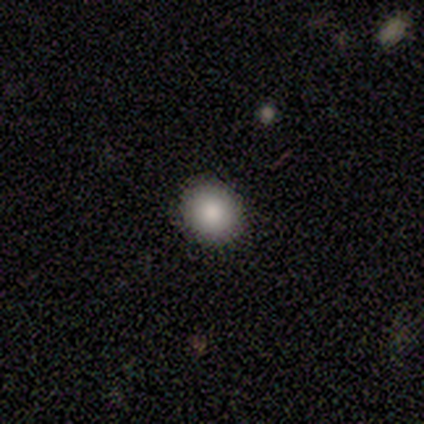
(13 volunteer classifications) Volunteers were most divided on "how rounded": round: 70%, in between: 30%, cigar-shaped: 0%. More confident: merging — none (100%); smooth or featured — smooth (77%).